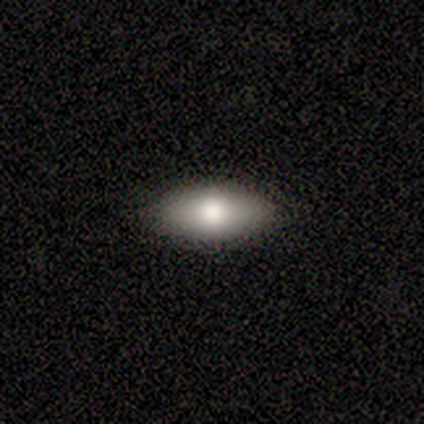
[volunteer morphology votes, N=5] Smooth or featured?
  - smooth: 60% *
  - featured or disk: 40%
  - star or artifact: 0%
How rounded?
  - in between: 100% *
  - round: 0%
  - cigar-shaped: 0%
Merging?
  - none: 100% *
  - minor disturbance: 0%
  - major disturbance: 0%
  - merger: 0%